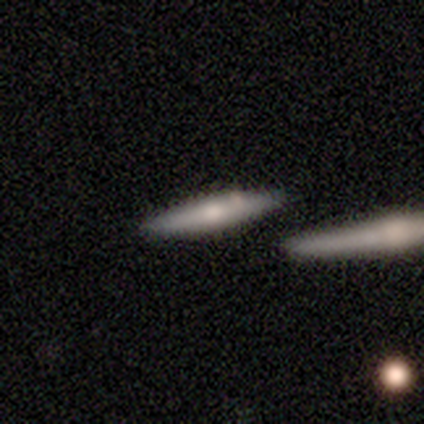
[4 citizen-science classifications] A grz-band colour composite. It shows a smooth galaxy with no disk features (75%) that is cigar-shaped (100%). Merging: none (50%, tied with merger).